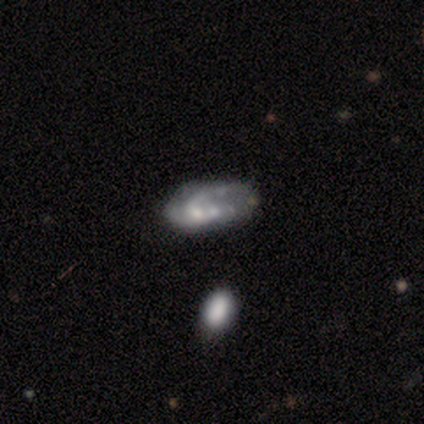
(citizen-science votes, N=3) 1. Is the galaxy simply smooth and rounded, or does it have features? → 67% featured or disk, 33% smooth, 0% star or artifact.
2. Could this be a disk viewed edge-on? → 100% no, 0% yes.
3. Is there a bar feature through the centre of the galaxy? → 100% no, 0% strong, 0% weak.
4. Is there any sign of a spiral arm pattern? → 100% no, 0% yes.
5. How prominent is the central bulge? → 100% none, 0% dominant, 0% large, 0% moderate, 0% small.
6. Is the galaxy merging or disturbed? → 100% none, 0% minor disturbance, 0% major disturbance, 0% merger.